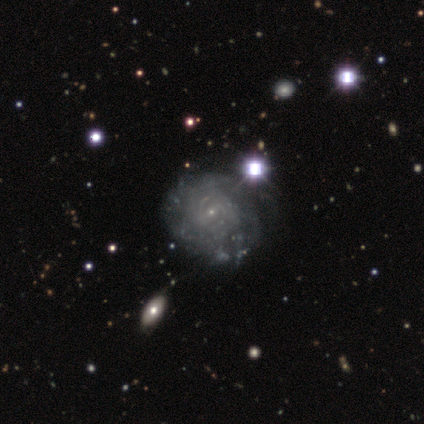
Smooth or featured: featured or disk — 82% (smooth — 10%)
Edge-on disk: no — 97% (yes — 3%)
Bar: weak — 55% (no — 29%)
Spiral arms: yes — 77% (no — 23%)
Spiral winding: tight — 62% (medium — 21%)
Spiral arm count: can't tell — 58% (2 — 33%)
Bulge size: small — 90% (none — 6%)
Merging: none — 47% (major disturbance — 14%)